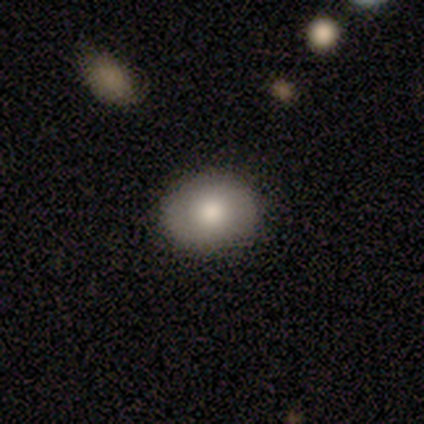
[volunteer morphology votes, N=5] A smooth galaxy with no disk features (60%) that is round (67%). Merging: none (60%).